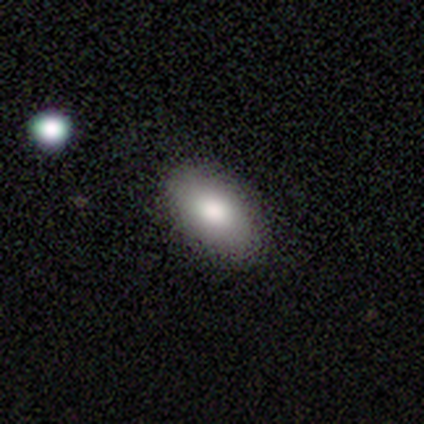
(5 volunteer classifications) This appears to be a smooth galaxy with no disk features (100%) that is in between round and cigar-shaped (100%). Merging: none (60%).